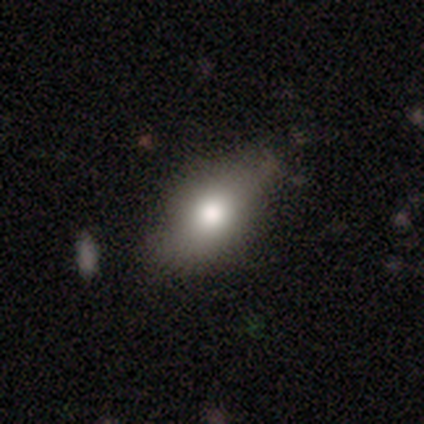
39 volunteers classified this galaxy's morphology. Smooth or featured? smooth (77%)
How rounded? in between (87%)
Merging? none (58%)